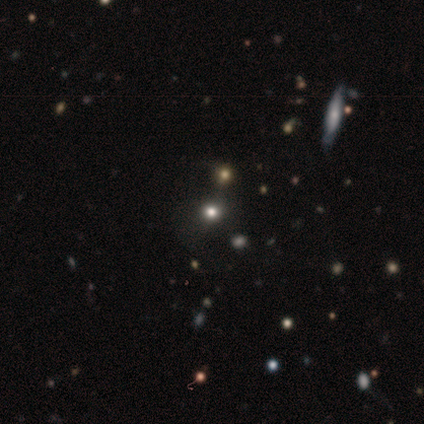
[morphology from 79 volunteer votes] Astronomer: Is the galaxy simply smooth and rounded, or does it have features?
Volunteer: smooth — 52% (runner-up: star or artifact, 37%).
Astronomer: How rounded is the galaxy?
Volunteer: round — 85%.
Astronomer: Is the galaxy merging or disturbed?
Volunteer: none — 32% (runner-up: merger, 16%).